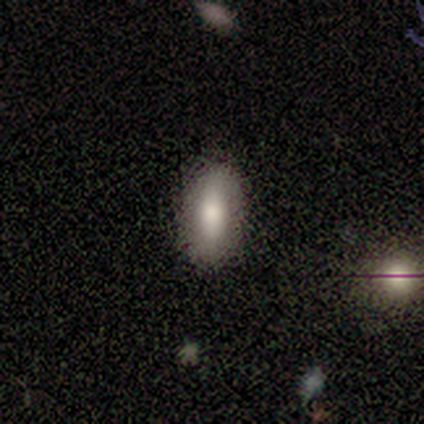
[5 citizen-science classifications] featured or disk 40% (tied), star or artifact 40% (tied), smooth 20%. Down the decision tree: edge-on disk — no (100%); bar — weak (50%, tied with no); spiral arms — yes (50%, tied with no); spiral arm count — 3 (100%); spiral winding — tight (100%); bulge size — large (50%, tied with moderate); merging — none (100%).